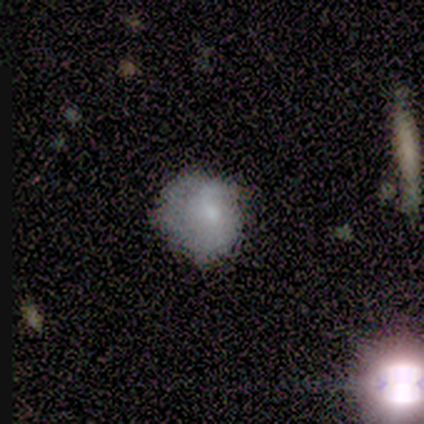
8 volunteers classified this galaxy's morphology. Smooth or featured? smooth (88%)
How rounded? round (86%)
Merging? none (62%)